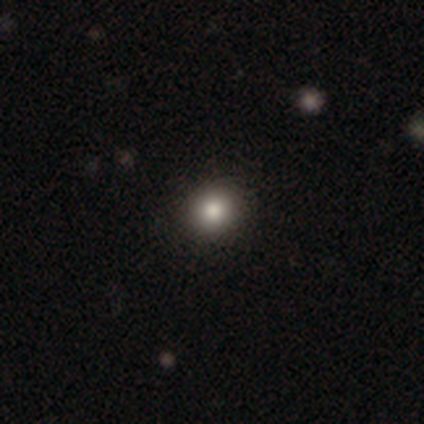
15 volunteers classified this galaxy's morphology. This is clearly a smooth galaxy (80%). How rounded: likely round (75%). Merging: clearly none (92%).